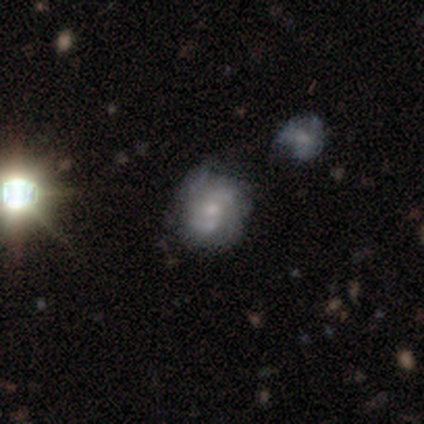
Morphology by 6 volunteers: Overall: featured or disk (83%). Edge-on disk: no (100%). Bar: no (80%). Spiral arms: yes (60%; no 40%). Spiral arm count: 2 (67%; 1 33%). Spiral winding: loose (67%; medium 33%). Bulge size: small (60%; none 40%). Merging: minor disturbance (60%; none 20%).